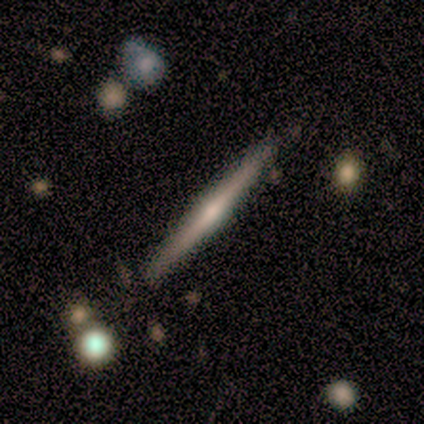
Smooth or featured? 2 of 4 (50%, tied with featured or disk) said smooth. How rounded? 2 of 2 (100%) said cigar-shaped. Merging? 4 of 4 (100%) said none.